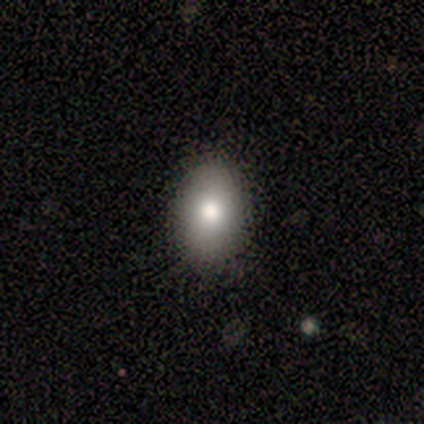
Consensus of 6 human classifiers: Volunteers were most divided on "merging": none: 83%, minor disturbance: 17%, major disturbance: 0%, merger: 0%. More confident: smooth or featured — smooth (100%); how rounded — in between (100%).